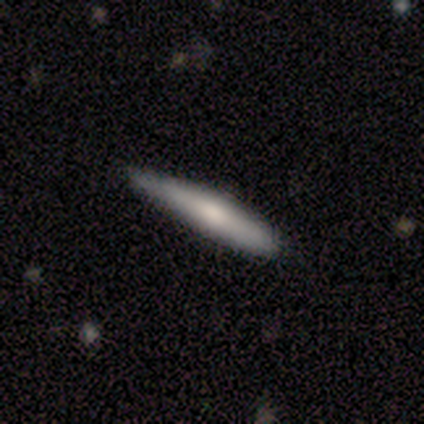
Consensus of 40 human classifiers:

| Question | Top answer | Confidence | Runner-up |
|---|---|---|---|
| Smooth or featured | smooth | 60% | featured or disk (30%) |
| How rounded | cigar-shaped | 88% | in between (12%) |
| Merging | none | 67% | minor disturbance (33%) |